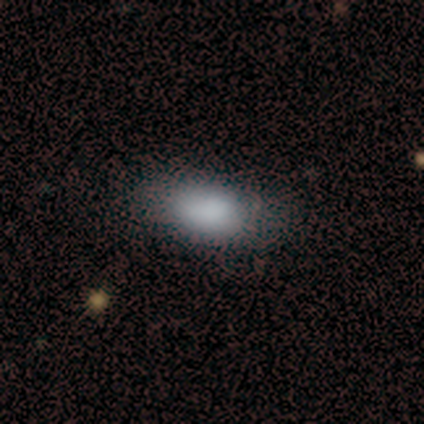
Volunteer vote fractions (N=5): smooth 100%, featured or disk 0%, star or artifact 0%. Down the decision tree: how rounded — in between (100%); merging — none (80%).